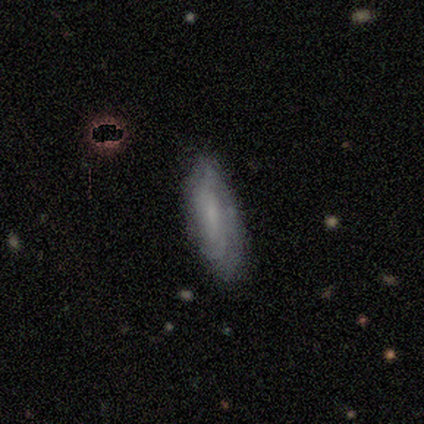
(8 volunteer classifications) Smooth or featured? featured or disk (62%)
Edge-on disk? no (100%)
Bar? no (60%)
Spiral arms? yes (60%)
Spiral winding? tight (100%)
Spiral arm count? can't tell (100%)
Bulge size? none (60%)
Merging? none (75%)